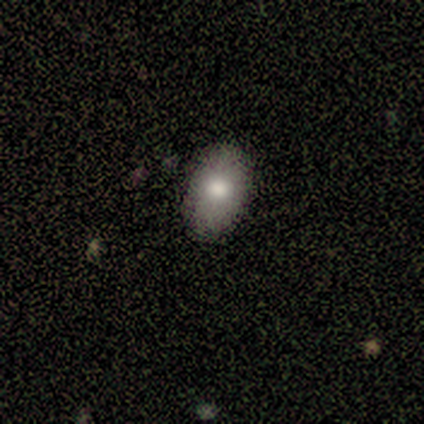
Smooth or featured: smooth — 75% (featured or disk — 25%)
How rounded: in between — 100%
Merging: none — 100%